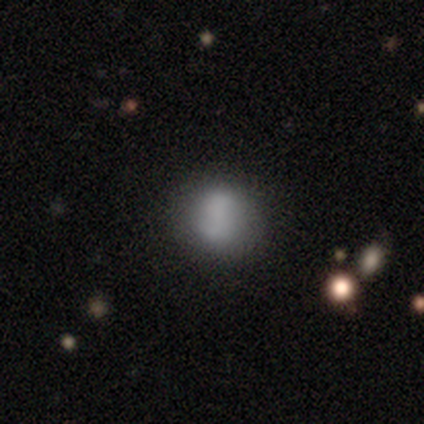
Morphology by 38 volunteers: Smooth or featured: smooth — 76% (featured or disk — 16%)
How rounded: round — 76% (in between — 24%)
Merging: none — 66% (minor disturbance — 23%)